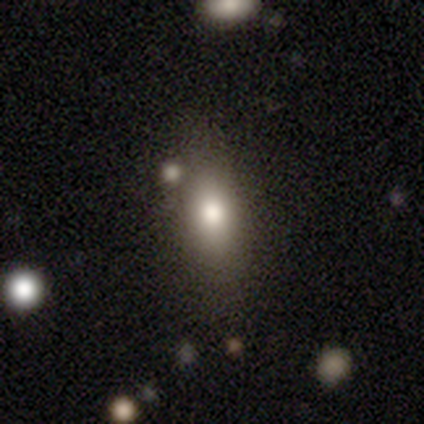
This appears to be a smooth galaxy with no disk features (74%) that is in between round and cigar-shaped (74%). Merging: none (73%).